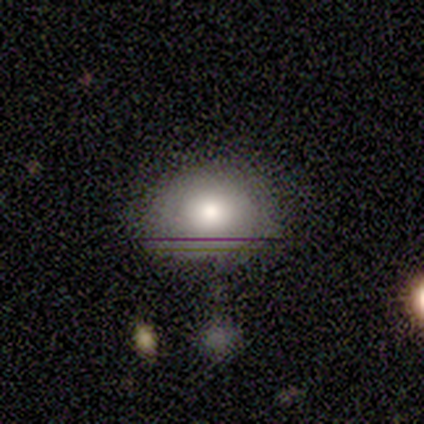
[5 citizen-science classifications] Volunteers were most divided on "smooth or featured": smooth: 60%, featured or disk: 40%, star or artifact: 0%. More confident: how rounded — in between (67%); merging — none (60%).